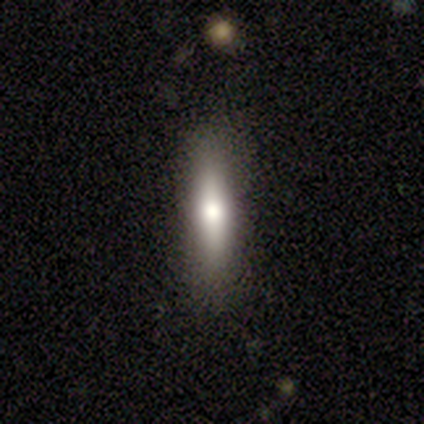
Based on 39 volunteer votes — smooth 46%, featured or disk 44%, star or artifact 10%. Down the decision tree: how rounded — cigar-shaped (83%); merging — none (80%).